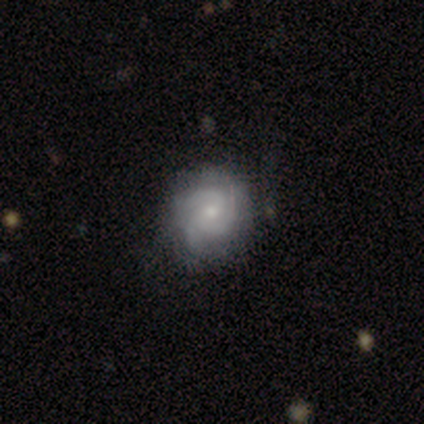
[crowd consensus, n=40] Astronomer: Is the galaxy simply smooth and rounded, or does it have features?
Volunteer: featured or disk — 72%.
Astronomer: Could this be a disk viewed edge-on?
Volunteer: no — 100%.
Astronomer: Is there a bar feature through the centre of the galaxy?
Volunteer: no — 66%.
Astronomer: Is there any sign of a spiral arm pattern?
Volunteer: yes — 97%.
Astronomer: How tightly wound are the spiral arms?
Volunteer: tight — 68%.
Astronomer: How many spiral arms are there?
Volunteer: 3 — 61%.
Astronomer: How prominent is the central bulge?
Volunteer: small — 76%.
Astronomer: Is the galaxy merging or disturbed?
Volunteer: none — 72%.